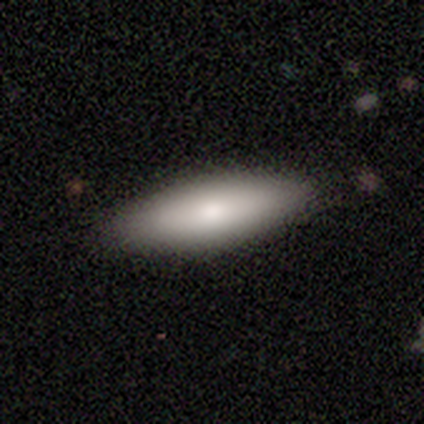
This is marginally a smooth galaxy (40%, tied with featured or disk). How rounded: possibly in between (50%, tied with cigar-shaped). Merging: clearly none (100%).